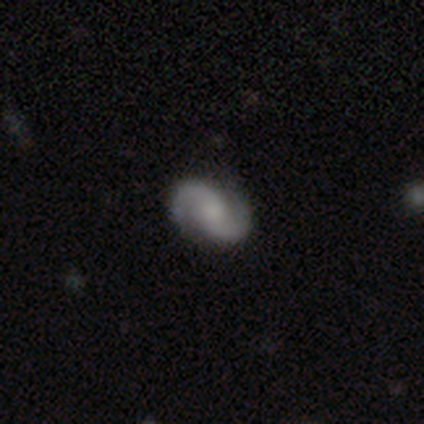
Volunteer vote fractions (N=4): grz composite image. It shows a featured or disk galaxy (75%) with a weak bar (100%), 2 (67%) medium (67%) spiral arms (100%) and a large central bulge (67%). Merging: none (75%).